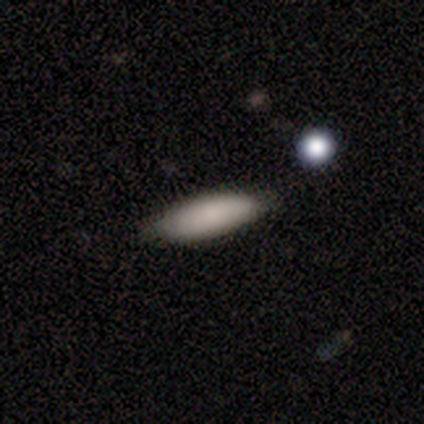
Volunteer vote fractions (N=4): Smooth or featured? 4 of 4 (100%) said smooth. How rounded? 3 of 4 (75%) said in between. Merging? 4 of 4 (100%) said none.